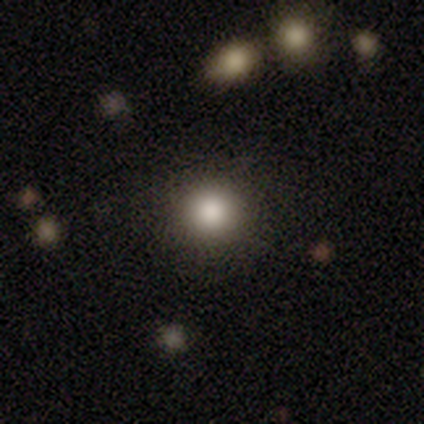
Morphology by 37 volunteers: Overall: smooth (68%). How rounded: round (96%). Merging: none (93%).